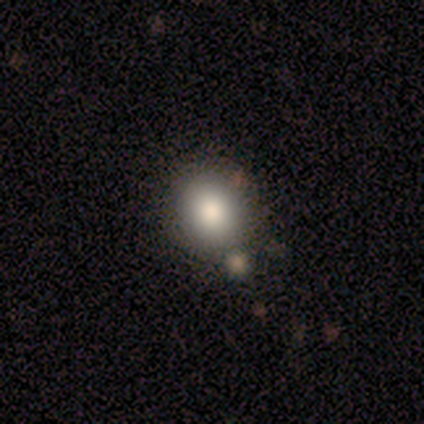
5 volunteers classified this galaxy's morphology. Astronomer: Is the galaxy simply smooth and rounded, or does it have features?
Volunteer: smooth — 100%.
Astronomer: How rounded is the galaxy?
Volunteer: in between — 60% (runner-up: round, 40%).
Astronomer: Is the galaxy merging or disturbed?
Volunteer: major disturbance — 40% (runner-up: none, 20%).